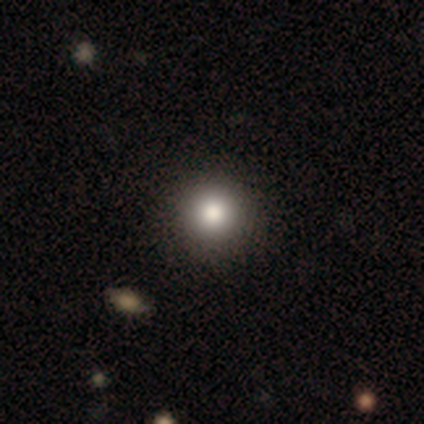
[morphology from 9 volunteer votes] Smooth or featured?
  - smooth: 89% *
  - star or artifact: 11%
  - featured or disk: 0%
How rounded?
  - round: 88% *
  - in between: 12%
  - cigar-shaped: 0%
Merging?
  - none: 88% *
  - minor disturbance: 12%
  - major disturbance: 0%
  - merger: 0%